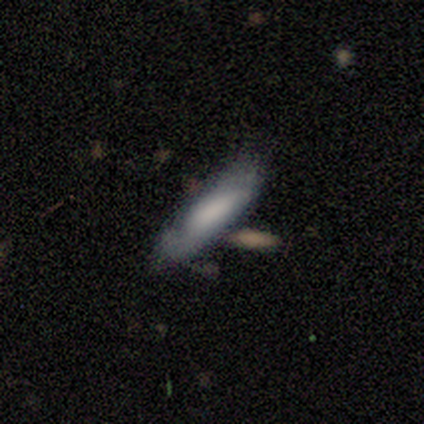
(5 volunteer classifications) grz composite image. It shows a smooth galaxy with no disk features (60%) that is in between round and cigar-shaped (67%). Merging: none (75%).